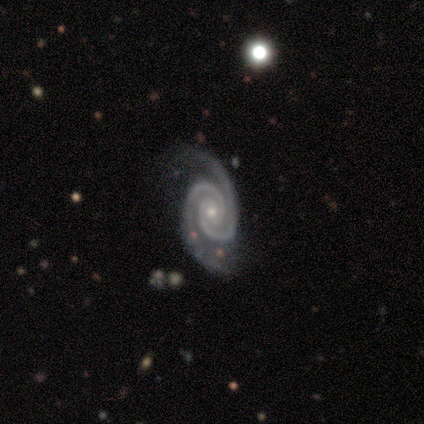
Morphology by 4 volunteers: A featured or disk galaxy (75%) with no bar (100%), 2 (100%) tight (33%, tied with medium and loose) spiral arms (100%) and a small central bulge (67%).

Vote fractions:
- Smooth or featured? featured or disk: 75% / smooth: 25% / star or artifact: 0%
- Edge-on disk? no: 100% / yes: 0%
- Bar? no: 100% / strong: 0% / weak: 0%
- Spiral arms? yes: 100% / no: 0%
- Spiral winding? tight: 33% (tied) / medium: 33% (tied) / loose: 33% (tied)
- Spiral arm count? 2: 100% / 1: 0% / 3: 0% / 4: 0% / more than 4: 0% / can't tell: 0%
- Bulge size? small: 67% / moderate: 33% / dominant: 0% / large: 0% / none: 0%
- Merging? none: 50% (tied) / major disturbance: 50% (tied) / minor disturbance: 0% / merger: 0%